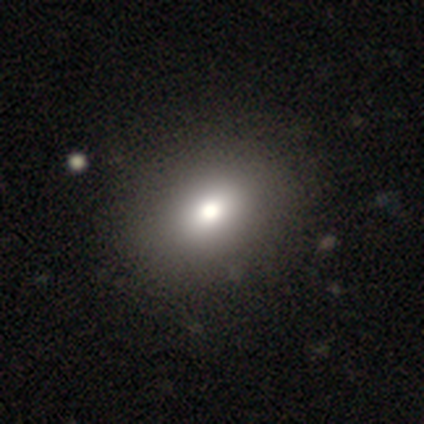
This is likely a smooth galaxy (60%). How rounded: likely in between (67%). Merging: likely none (75%).